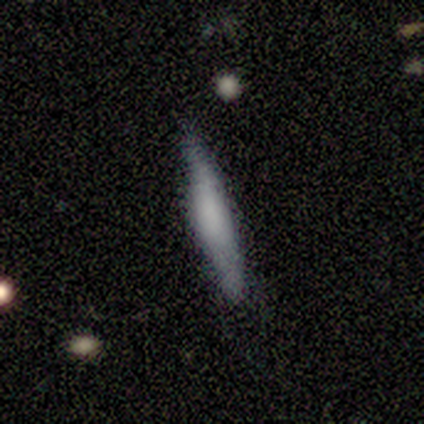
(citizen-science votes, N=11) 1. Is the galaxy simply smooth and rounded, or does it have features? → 73% smooth, 27% featured or disk, 0% star or artifact.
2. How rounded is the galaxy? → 100% cigar-shaped, 0% round, 0% in between.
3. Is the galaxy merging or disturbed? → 91% none, 9% minor disturbance, 0% major disturbance, 0% merger.